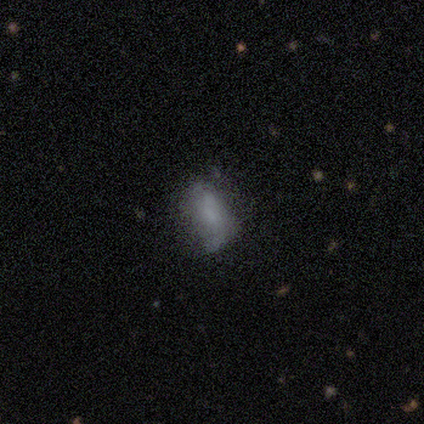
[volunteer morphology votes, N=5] Smooth or featured? smooth (60%)
How rounded? in between (100%)
Merging? minor disturbance (60%)